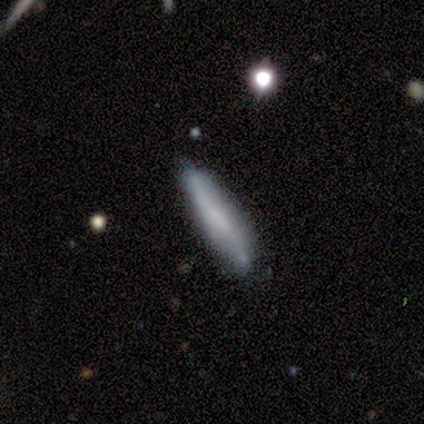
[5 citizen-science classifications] Volunteers were most divided on "smooth or featured" (2-way tie): smooth: 40%, featured or disk: 40%, star or artifact: 20%. More confident: how rounded — cigar-shaped (100%); merging — none (75%).